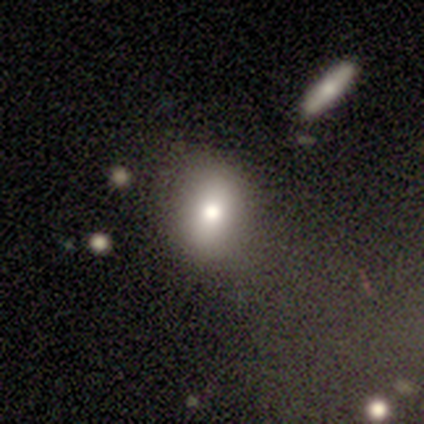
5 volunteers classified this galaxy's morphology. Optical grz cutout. It shows a smooth galaxy with no disk features (60%) that is in between round and cigar-shaped (67%). Merging: none (50%, tied with minor disturbance).